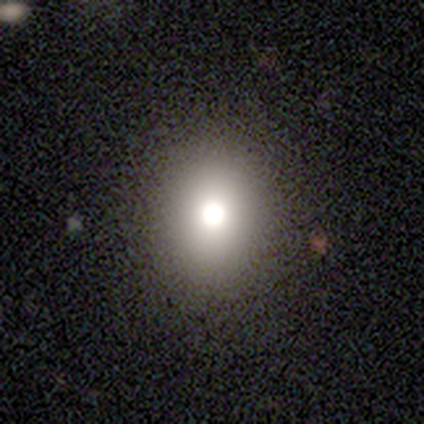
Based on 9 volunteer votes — smooth_or_featured: smooth (p=0.67) [alt: star or artifact p=0.22]
how_rounded: round (p=1.00)
merging: none (p=0.57) [alt: major disturbance p=0.29]